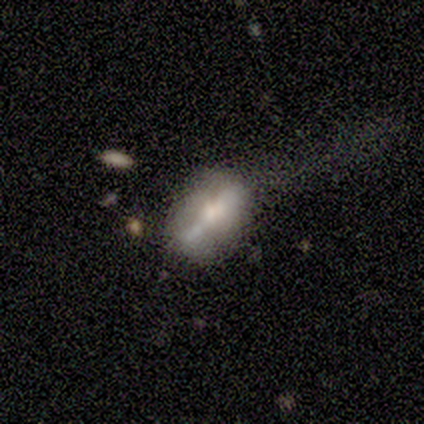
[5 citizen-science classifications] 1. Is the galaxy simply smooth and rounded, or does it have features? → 60% featured or disk, 20% smooth, 20% star or artifact.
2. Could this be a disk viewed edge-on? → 67% yes, 33% no.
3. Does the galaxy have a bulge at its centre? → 100% rounded, 0% boxy, 0% none.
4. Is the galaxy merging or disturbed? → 50% minor disturbance, 25% none, 25% major disturbance, 0% merger.